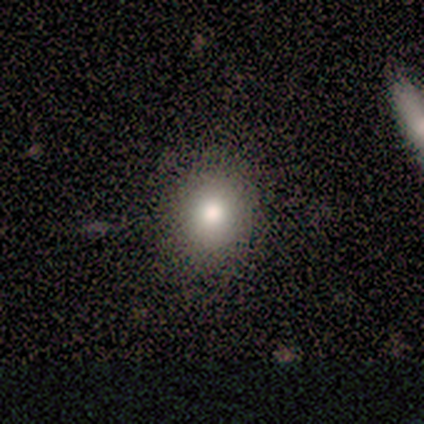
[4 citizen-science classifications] Smooth or featured? 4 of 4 (100%) said smooth. How rounded? 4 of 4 (100%) said round. Merging? 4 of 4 (100%) said none.